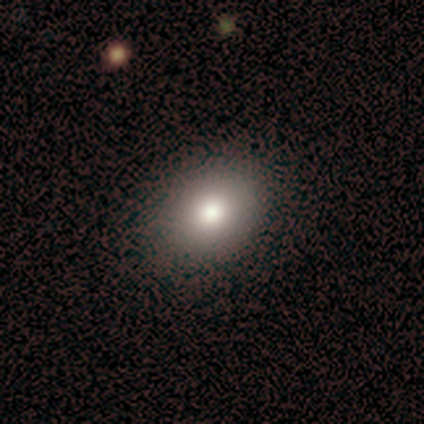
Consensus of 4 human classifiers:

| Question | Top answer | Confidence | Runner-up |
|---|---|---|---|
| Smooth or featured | smooth | 75% | star or artifact (25%) |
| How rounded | in between | 67% | round (33%) |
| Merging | none | 67% | major disturbance (33%) |